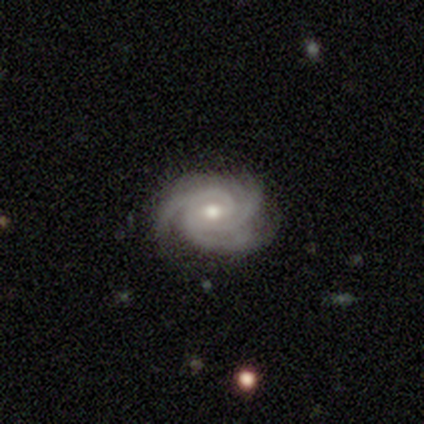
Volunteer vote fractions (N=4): Morphology: type=featured or disk (75%); edge-on=no (100%); bar=no (67%); spiral arms=yes (100%); winding=tight (67%); arm count=3 (67%); bulge=moderate (100%); merging=none (100%).